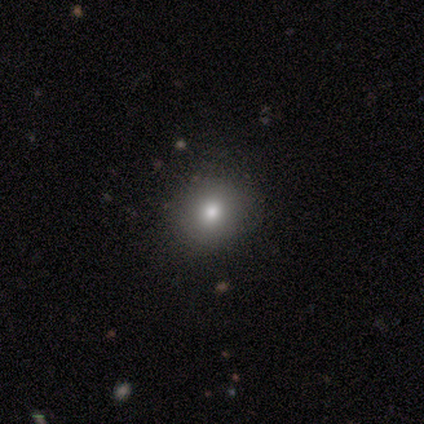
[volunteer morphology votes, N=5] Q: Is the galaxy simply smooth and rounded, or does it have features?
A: smooth — 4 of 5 (80%).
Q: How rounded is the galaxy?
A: round — 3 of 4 (75%).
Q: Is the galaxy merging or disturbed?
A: none — 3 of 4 (75%).